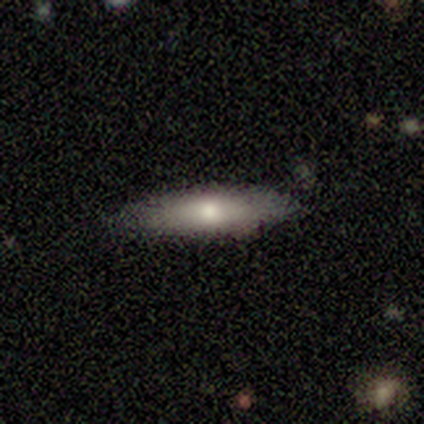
Overall: smooth (67%; featured or disk 33%). How rounded: cigar-shaped (67%; in between 33%). Merging: none (89%).